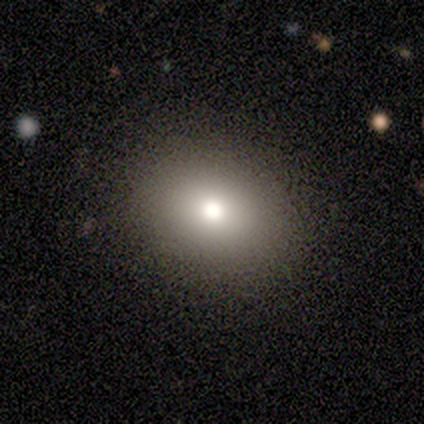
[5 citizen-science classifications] Morphology: type=smooth (80%); roundness=in between (75%); merging=none (75%).